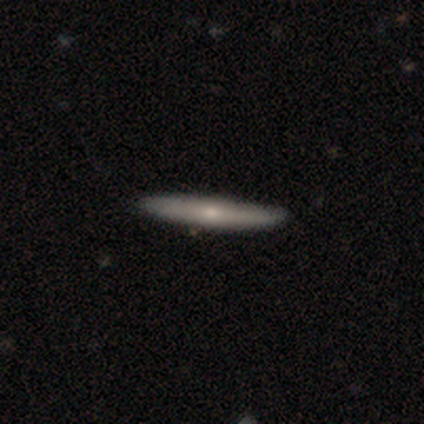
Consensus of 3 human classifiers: A featured or disk galaxy (100%) viewed edge-on (100%) with a rounded central bulge (100%).

Vote fractions:
- Smooth or featured? featured or disk: 100% / smooth: 0% / star or artifact: 0%
- Edge-on disk? yes: 100% / no: 0%
- Edge-on bulge? rounded: 100% / boxy: 0% / none: 0%
- Merging? none: 100% / minor disturbance: 0% / major disturbance: 0% / merger: 0%